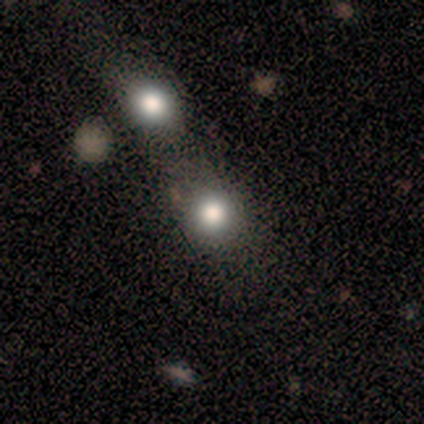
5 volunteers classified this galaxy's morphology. This appears to be a smooth galaxy with no disk features (80%) that is round (100%). Merging: none (50%, tied with merger).